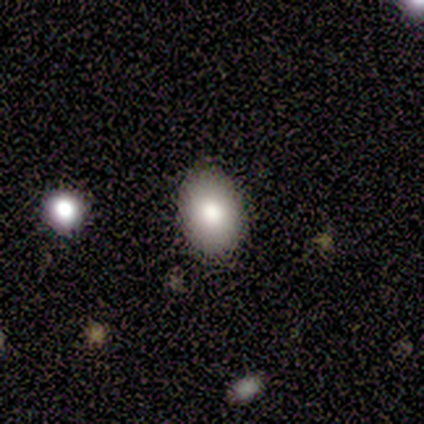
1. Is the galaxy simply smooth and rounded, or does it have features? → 100% smooth, 0% featured or disk, 0% star or artifact.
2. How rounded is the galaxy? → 60% in between, 40% round, 0% cigar-shaped.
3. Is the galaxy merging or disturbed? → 100% none, 0% minor disturbance, 0% major disturbance, 0% merger.